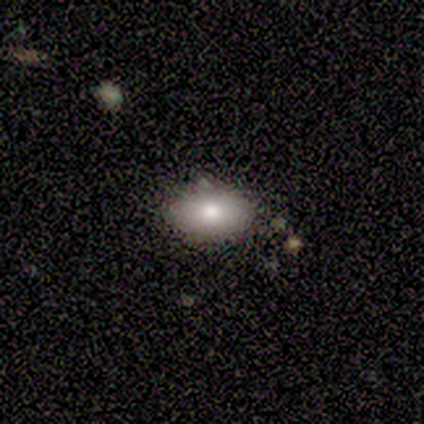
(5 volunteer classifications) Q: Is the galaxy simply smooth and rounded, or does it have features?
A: smooth — 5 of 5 (100%).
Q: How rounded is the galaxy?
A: in between — 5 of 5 (100%).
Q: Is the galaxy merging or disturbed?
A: none — 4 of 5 (80%).